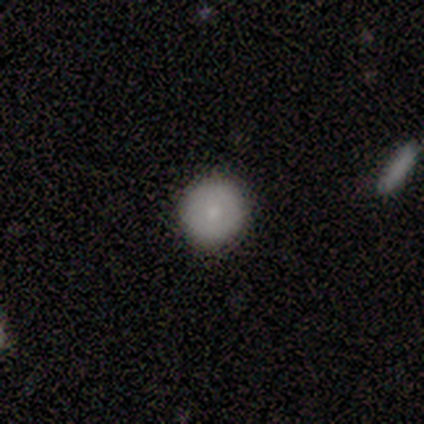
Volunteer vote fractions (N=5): Smooth or featured: smooth — 100%
How rounded: round — 100%
Merging: none — 80% (merger — 20%)